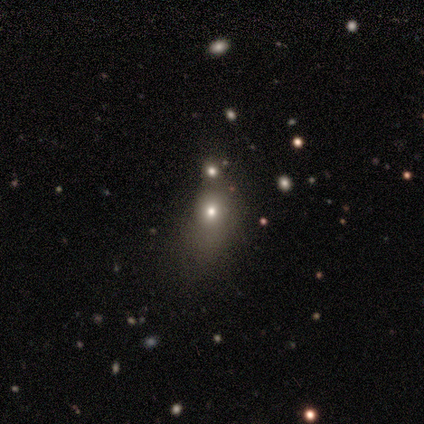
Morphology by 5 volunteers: smooth-or-featured: star or artifact: 80% | smooth: 20% | featured or disk: 0%